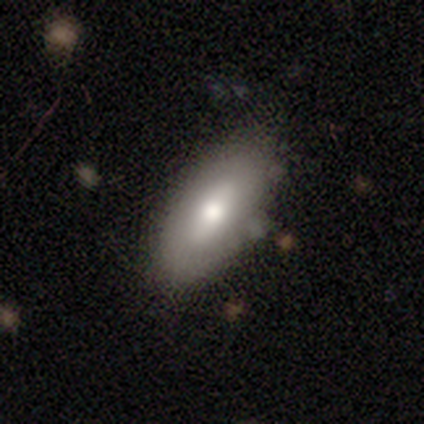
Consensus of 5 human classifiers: smooth-or-featured: featured or disk: 60% | smooth: 40% | star or artifact: 0%
  disk-edge-on: no: 100% | yes: 0%
    bar: strong: 67% | no: 33% | weak: 0%
    has-spiral-arms: no: 100% | yes: 0%
    bulge-size: moderate: 100% | dominant: 0% | large: 0% | small: 0% | none: 0%
  merging: none: 100% | minor disturbance: 0% | major disturbance: 0% | merger: 0%